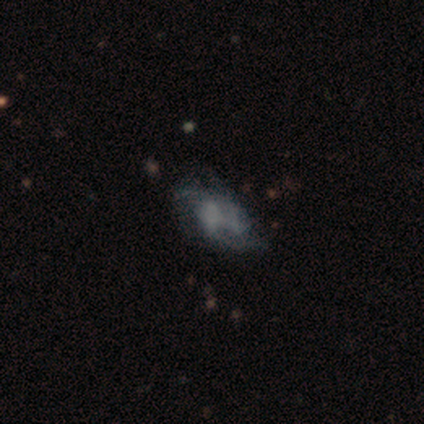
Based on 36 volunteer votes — A featured or disk galaxy (78%) with no bar (68%), 2 (59%) loose (47%) spiral arms (68%) and no central bulge (72%).

Vote fractions:
- Smooth or featured? featured or disk: 78% / smooth: 19% / star or artifact: 3%
- Edge-on disk? no: 89% / yes: 11%
- Bar? no: 68% / weak: 20% / strong: 12%
- Spiral arms? yes: 68% / no: 32%
- Spiral winding? loose: 47% / tight: 29% / medium: 24%
- Spiral arm count? 2: 59% / 1: 18% / can't tell: 12% / 3: 6% / more than 4: 6% / 4: 0%
- Bulge size? none: 72% / moderate: 12% / large: 8% / small: 8% / dominant: 0%
- Merging? none: 31% (tied) / minor disturbance: 31% (tied) / major disturbance: 23% / merger: 14%